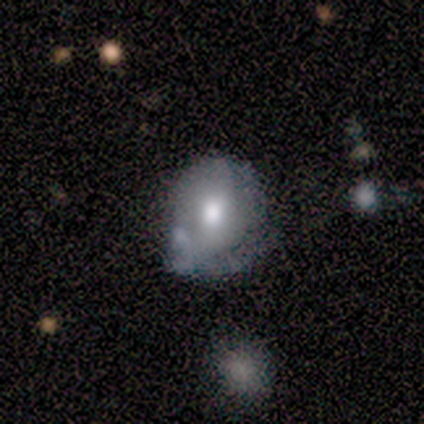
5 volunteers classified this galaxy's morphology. type=featured or disk (60%); edge-on=no (100%); bar=no (100%); spiral arms=no (67%); bulge=moderate (67%); merging=minor disturbance (50%, tied with merger).